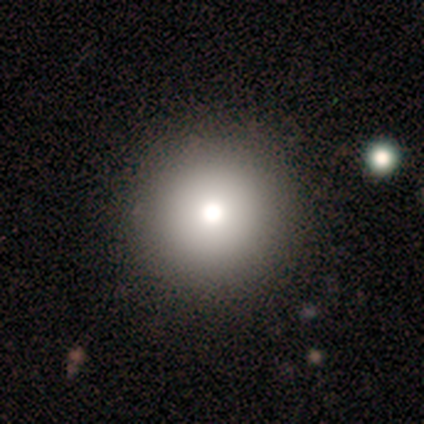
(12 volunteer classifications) Smooth or featured: smooth — 83% (featured or disk — 8%)
How rounded: round — 100%
Merging: none — 100%